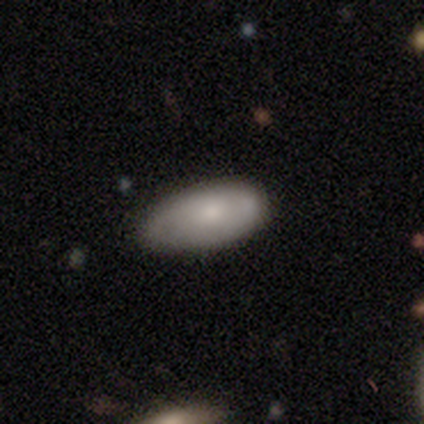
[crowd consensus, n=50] Smooth or featured?
  - smooth: 76% *
  - featured or disk: 24%
  - star or artifact: 0%
How rounded?
  - in between: 92% *
  - cigar-shaped: 8%
  - round: 0%
Merging?
  - none: 62% *
  - minor disturbance: 32%
  - major disturbance: 6%
  - merger: 0%